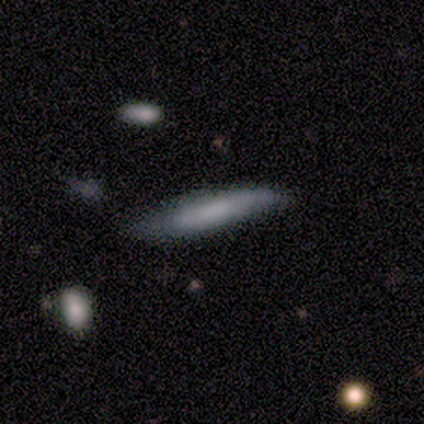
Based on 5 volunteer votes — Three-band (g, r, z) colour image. It shows a smooth galaxy with no disk features (60%) that is cigar-shaped (67%). Merging: none (40%, tied with major disturbance).